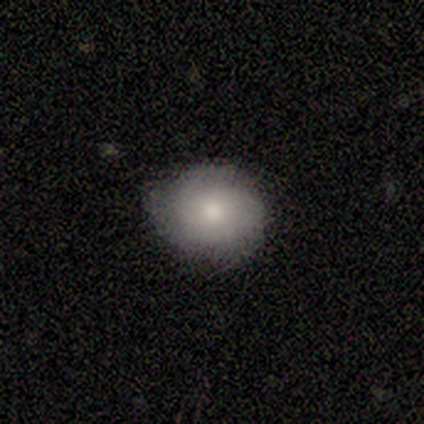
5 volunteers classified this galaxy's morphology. Smooth or featured? 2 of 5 (40%, tied with featured or disk) said smooth. How rounded? 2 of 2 (100%) said round. Merging? 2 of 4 (50%, tied with minor disturbance) said none.